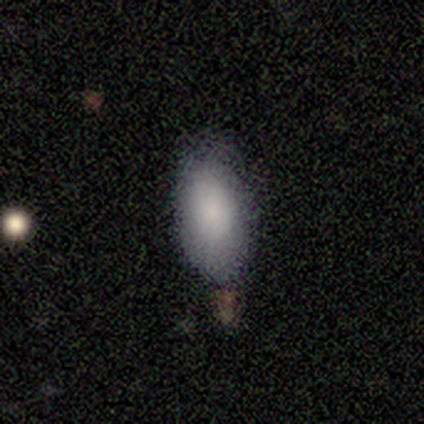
Smooth or featured? 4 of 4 (100%) said smooth. How rounded? 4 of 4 (100%) said in between. Merging? 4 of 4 (100%) said none.